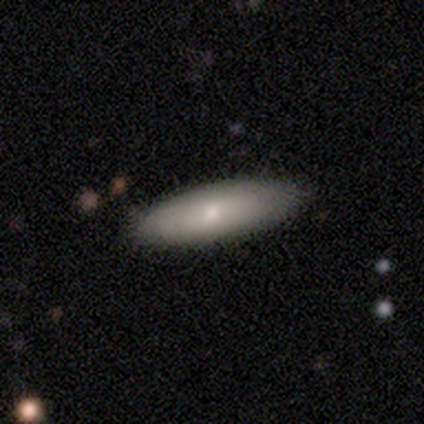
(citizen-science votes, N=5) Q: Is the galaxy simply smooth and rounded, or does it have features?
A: featured or disk — 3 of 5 (60%).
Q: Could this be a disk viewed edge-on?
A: no — 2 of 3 (67%).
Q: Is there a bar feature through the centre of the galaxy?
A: weak — 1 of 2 (50%, tied with no).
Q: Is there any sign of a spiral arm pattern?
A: yes — 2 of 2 (100%).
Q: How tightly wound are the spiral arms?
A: tight — 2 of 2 (100%).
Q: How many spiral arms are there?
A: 2 — 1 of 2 (50%, tied with can't tell).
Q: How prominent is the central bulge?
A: moderate — 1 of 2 (50%, tied with small).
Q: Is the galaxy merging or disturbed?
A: none — 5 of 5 (100%).